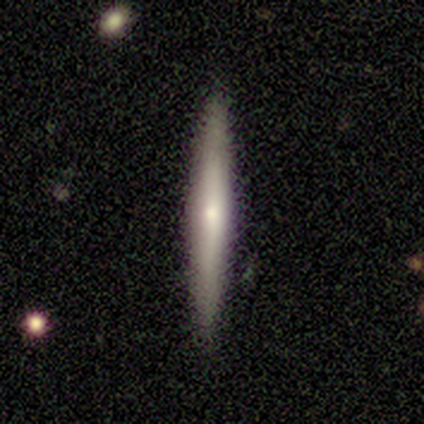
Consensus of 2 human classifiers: A smooth galaxy with no disk features (50%, tied with featured or disk) that is cigar-shaped (100%). Merging: none (100%).